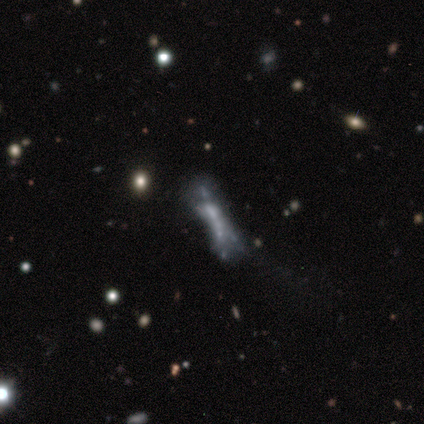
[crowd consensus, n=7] Morphology: type=featured or disk (71%); edge-on=no (80%); bar=no (100%); spiral arms=no (100%); bulge=none (75%); merging=major disturbance (43%).